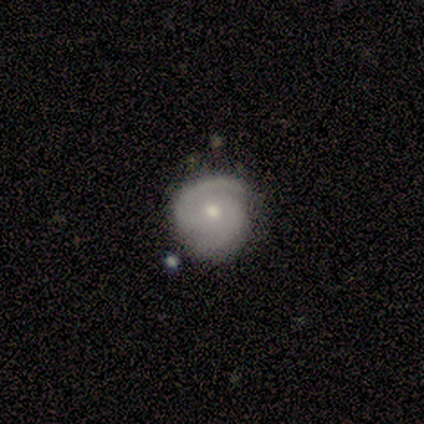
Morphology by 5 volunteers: A featured or disk galaxy (60%) with a weak bar (100%), 2 (100%) medium (67%) spiral arms (100%) and a small central bulge (67%). Merging: none (100%).